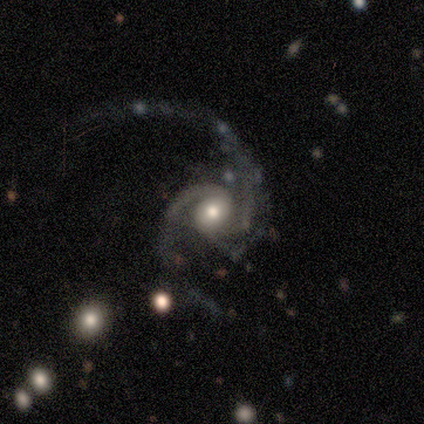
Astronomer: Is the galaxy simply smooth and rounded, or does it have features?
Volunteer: featured or disk — 80%.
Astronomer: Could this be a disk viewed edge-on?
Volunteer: no — 100%.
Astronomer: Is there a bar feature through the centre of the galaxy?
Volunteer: no — 75%.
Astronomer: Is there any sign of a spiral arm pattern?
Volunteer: yes — 100%.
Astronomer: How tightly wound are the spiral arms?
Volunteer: loose — 50%.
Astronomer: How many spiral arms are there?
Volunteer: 2 — 100%.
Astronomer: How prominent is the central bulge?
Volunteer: moderate — 75%.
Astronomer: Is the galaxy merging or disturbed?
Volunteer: none — 50%, tied with major disturbance at 50%.